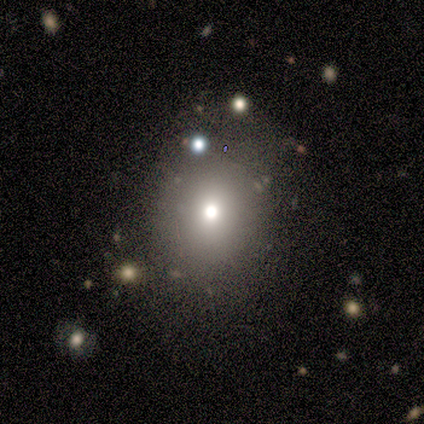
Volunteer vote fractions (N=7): Smooth or featured?
  - smooth: 100% *
  - featured or disk: 0%
  - star or artifact: 0%
How rounded?
  - in between: 57% *
  - round: 43%
  - cigar-shaped: 0%
Merging?
  - none: 71% *
  - major disturbance: 14%
  - merger: 14%
  - minor disturbance: 0%